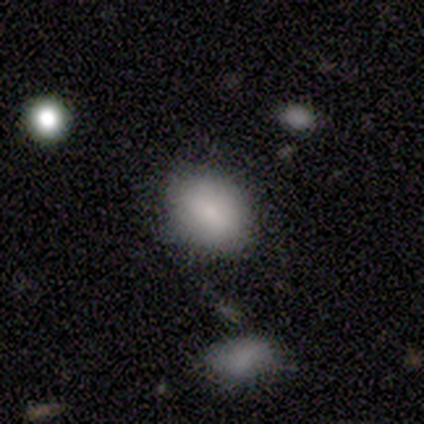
Volunteers were most divided on "how rounded": in between: 60%, round: 40%, cigar-shaped: 0%. More confident: smooth or featured — smooth (100%); merging — none (80%).